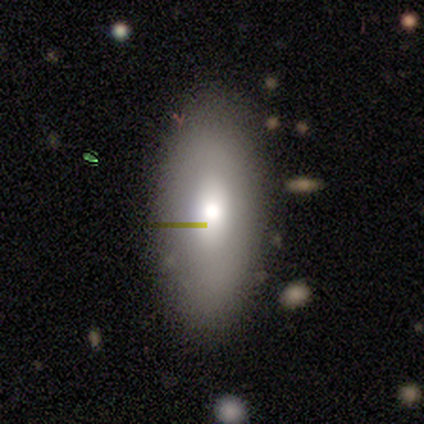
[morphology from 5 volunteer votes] smooth 40% (tied), featured or disk 40% (tied), star or artifact 20%. Down the decision tree: how rounded — in between (100%); merging — none (75%).